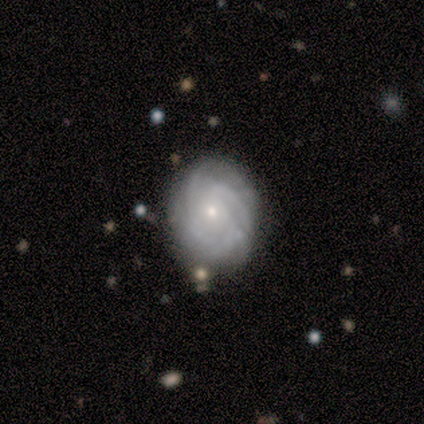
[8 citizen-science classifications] Smooth or featured: featured or disk — 62% (smooth — 38%)
Edge-on disk: no — 100%
Bar: no — 100%
Spiral arms: yes — 80% (no — 20%)
Spiral winding: tight — 75% (medium — 25%)
Spiral arm count: can't tell — 50% (3 — 25%)
Bulge size: small — 100%
Merging: none — 62% (minor disturbance — 25%)